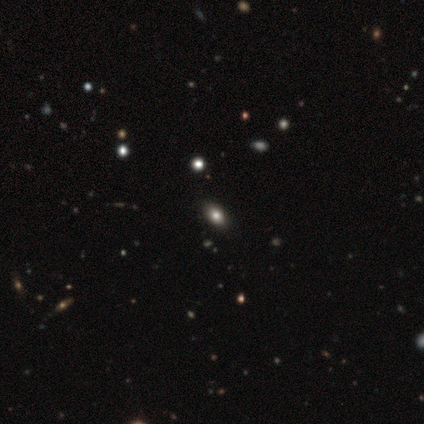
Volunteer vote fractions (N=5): This appears to be a smooth galaxy with no disk features (80%) that is in between round and cigar-shaped (100%). Merging: none (80%).